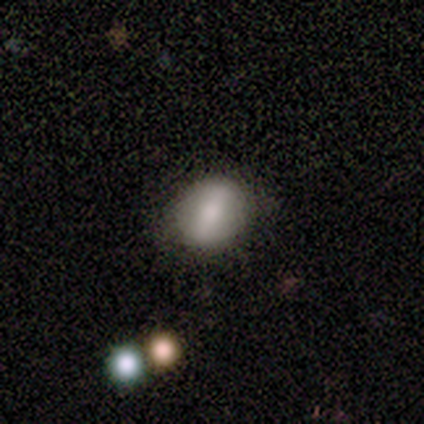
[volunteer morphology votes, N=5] Smooth or featured: smooth — 100%
How rounded: in between — 60% (round — 40%)
Merging: none — 80% (minor disturbance — 20%)